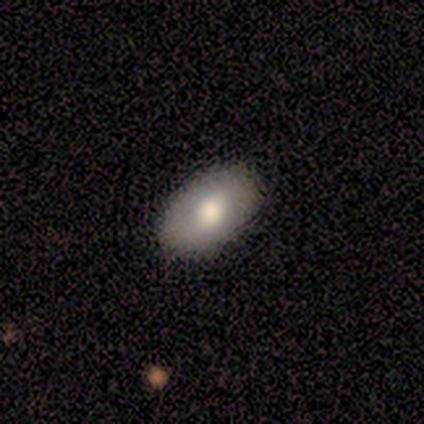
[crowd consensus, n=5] This appears to be a smooth galaxy with no disk features (100%) that is in between round and cigar-shaped (100%). Merging: none (100%).